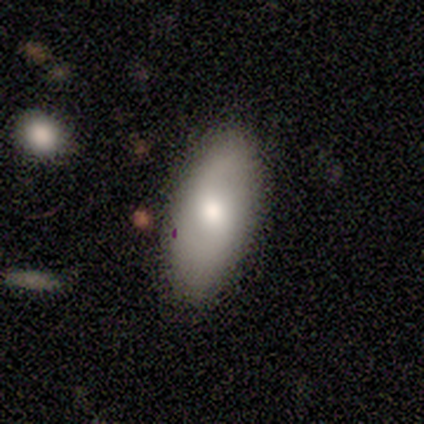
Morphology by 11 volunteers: Smooth or featured: smooth — 55% (featured or disk — 45%)
How rounded: in between — 83% (cigar-shaped — 17%)
Merging: none — 91% (minor disturbance — 9%)